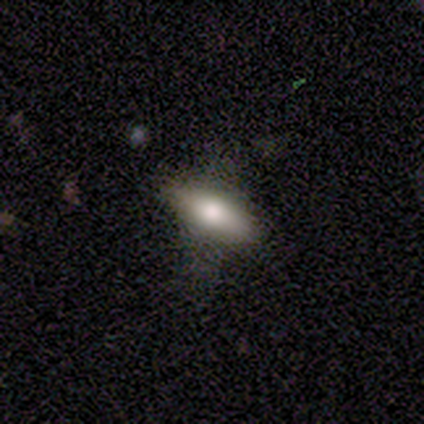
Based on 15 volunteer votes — smooth_or_featured: smooth (p=0.67) [alt: featured or disk p=0.27]
how_rounded: in between (p=0.50) [tied with: cigar-shaped p=0.50]
merging: none (p=0.64) [alt: minor disturbance p=0.21]